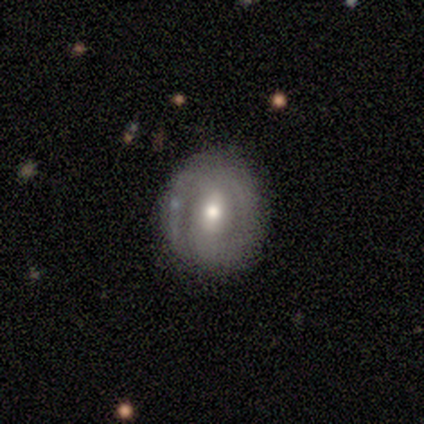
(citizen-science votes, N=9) smooth_or_featured: smooth (p=0.67) [alt: featured or disk p=0.33]
how_rounded: round (p=0.67) [alt: in between p=0.33]
merging: none (p=0.89) [alt: minor disturbance p=0.11]